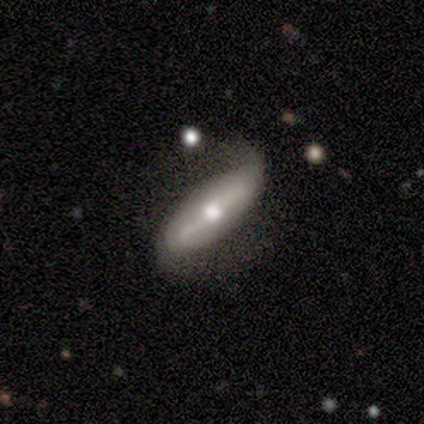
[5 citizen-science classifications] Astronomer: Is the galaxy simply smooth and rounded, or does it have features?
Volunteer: featured or disk — 80%.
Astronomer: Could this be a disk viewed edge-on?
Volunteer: no — 100%.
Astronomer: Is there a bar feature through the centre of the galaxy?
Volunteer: strong — 50%, tied with weak at 50%.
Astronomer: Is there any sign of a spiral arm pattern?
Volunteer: yes — 100%.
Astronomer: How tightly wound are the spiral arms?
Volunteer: loose — 75%.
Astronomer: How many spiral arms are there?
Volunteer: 2 — 75%.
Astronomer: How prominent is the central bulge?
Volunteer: moderate — 75%.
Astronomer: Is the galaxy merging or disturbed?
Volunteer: minor disturbance — 40%, tied with major disturbance at 40%.